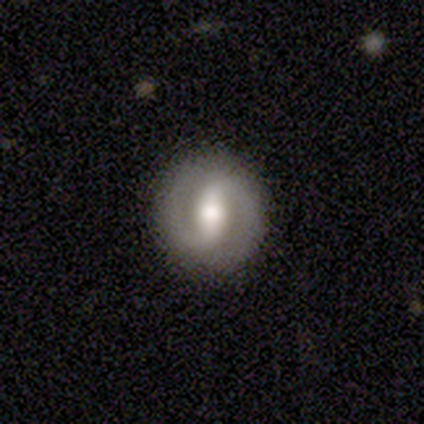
This is clearly a featured or disk galaxy (100%). It is clearly not viewed edge-on (80%). Bar: clearly strong (100%). Spiral arm pattern: likely yes (75%). Spiral arm count: clearly 2 (100%). Spiral winding: marginally tight (33%, tied with medium and loose). Central bulge: likely moderate (75%). Merging: clearly none (80%).